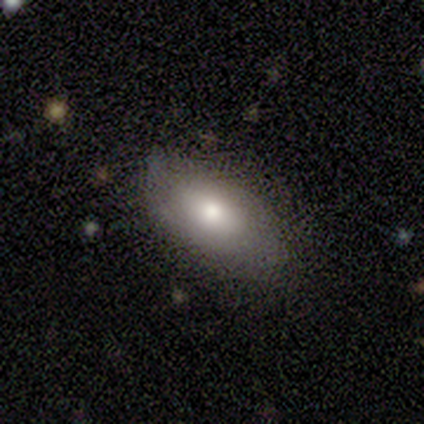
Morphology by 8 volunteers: smooth-or-featured: smooth: 100% | featured or disk: 0% | star or artifact: 0%
  how-rounded: in between: 100% | round: 0% | cigar-shaped: 0%
  merging: none: 100% | minor disturbance: 0% | major disturbance: 0% | merger: 0%